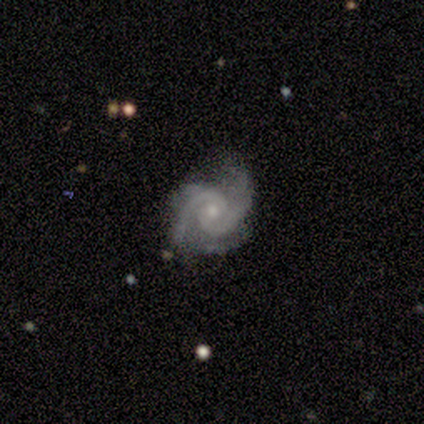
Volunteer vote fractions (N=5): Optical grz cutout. It shows a featured or disk galaxy (100%) with no bar (100%), 2 (100%) tight (80%) spiral arms (100%) and a small central bulge (80%). Merging: none (40%, tied with minor disturbance).